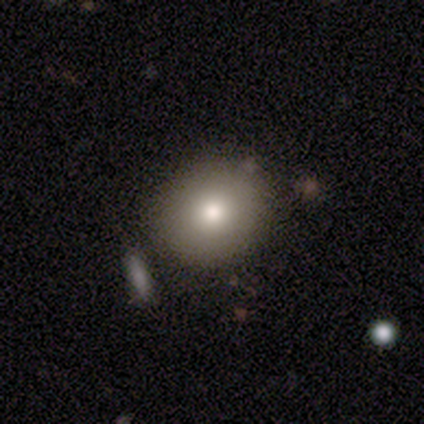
A smooth galaxy with no disk features (80%) that is round (50%, tied with in between). Merging: none (40%, tied with minor disturbance).